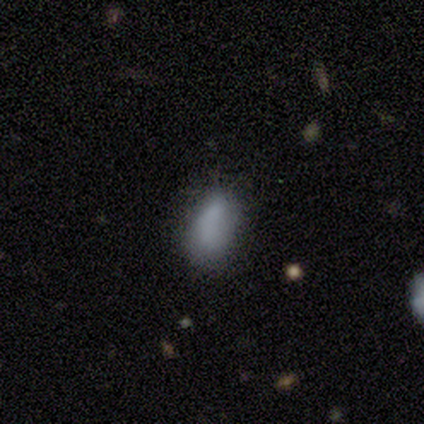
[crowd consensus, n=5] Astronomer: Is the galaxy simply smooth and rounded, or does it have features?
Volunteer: smooth — 40%, tied with star or artifact at 40%.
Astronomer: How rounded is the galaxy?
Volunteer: in between — 100%.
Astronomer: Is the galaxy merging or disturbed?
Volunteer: none — 67%.